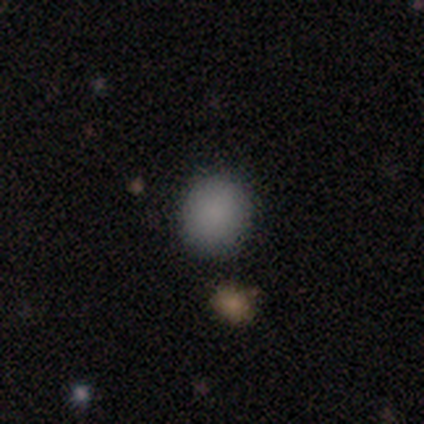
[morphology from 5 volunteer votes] Smooth or featured? smooth (80%)
How rounded? round (100%)
Merging? none (100%)